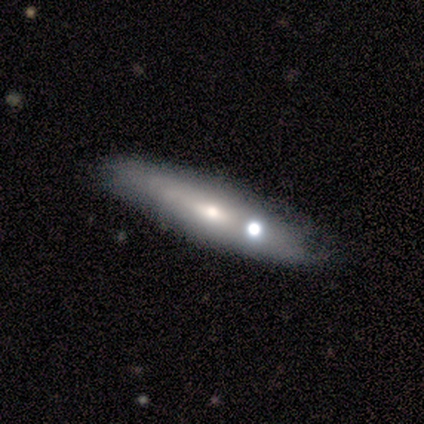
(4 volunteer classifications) Overall: smooth (75%). How rounded: cigar-shaped (67%; in between 33%). Merging: none (100%).